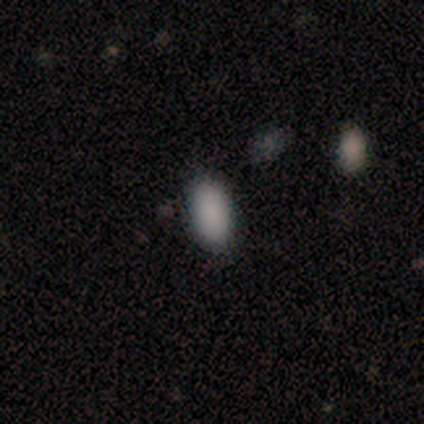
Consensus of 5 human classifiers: This appears to be a smooth galaxy with no disk features (80%) that is in between round and cigar-shaped (100%). Merging: none (75%).